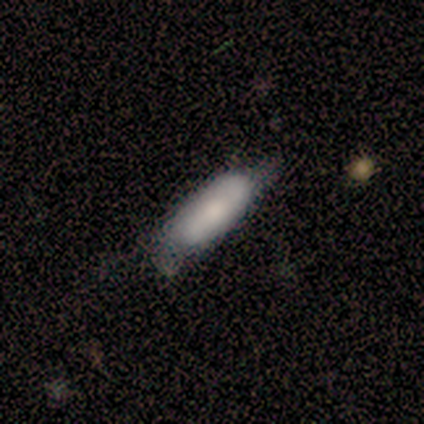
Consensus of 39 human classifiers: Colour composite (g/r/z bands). It shows a smooth galaxy with no disk features (64%) that is in between round and cigar-shaped (56%). Merging: none (53%).